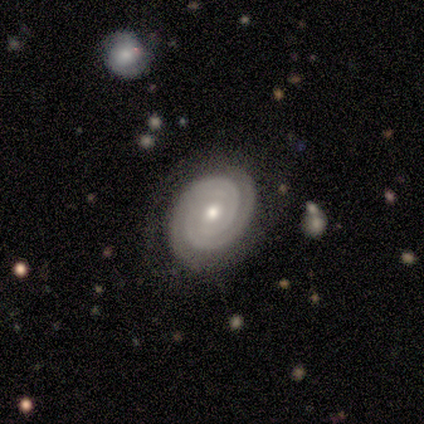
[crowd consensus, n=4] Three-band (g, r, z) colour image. It shows a featured or disk galaxy (100%) with no bar (100%), 2 (75%) tight (100%) spiral arms (100%) and a small central bulge (75%). Merging: none (75%).